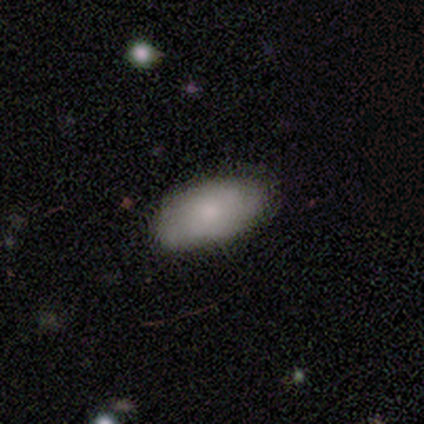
smooth 78%, featured or disk 16%, star or artifact 7%. Down the decision tree: how rounded — in between (97%); merging — none (57%).